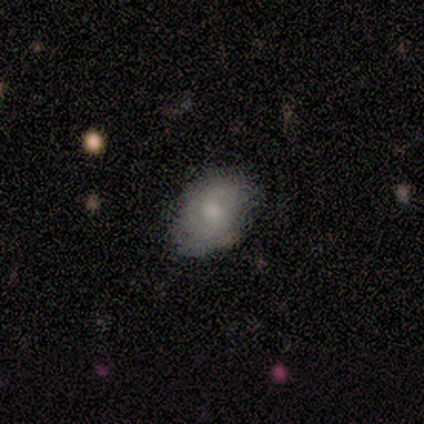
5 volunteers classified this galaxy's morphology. Overall: smooth (60%; featured or disk 40%). How rounded: in between (67%; round 33%). Merging: minor disturbance (60%; none 40%).